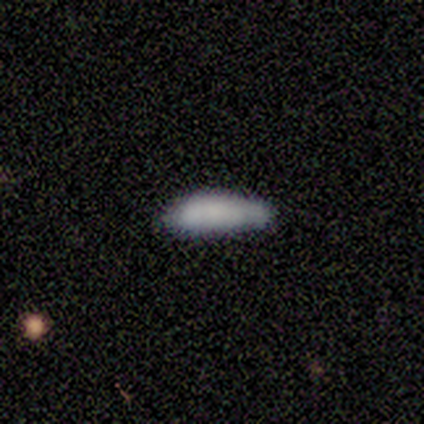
Q: Smooth or featured?
A: smooth (73%); runner-up: featured or disk (18%)
Q: How rounded?
A: cigar-shaped (62%); runner-up: in between (38%)
Q: Merging?
A: none (50%); tied with: minor disturbance (50%)